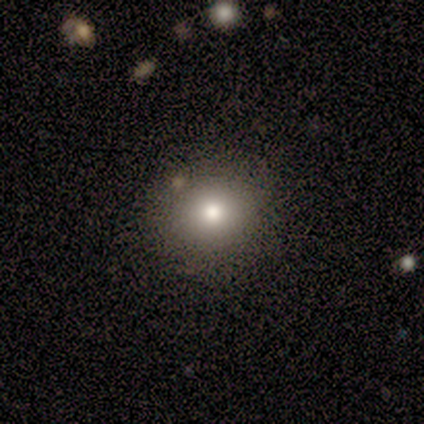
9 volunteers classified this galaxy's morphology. Smooth or featured: smooth — 78% (featured or disk — 11%)
How rounded: round — 100%
Merging: none — 88% (merger — 12%)